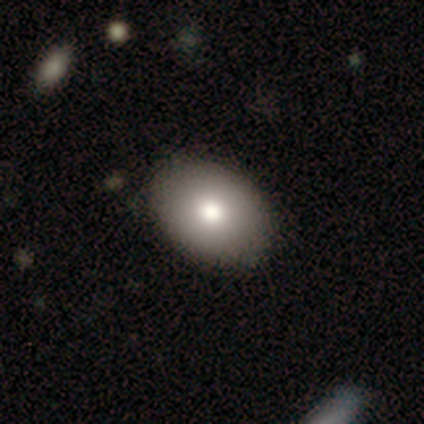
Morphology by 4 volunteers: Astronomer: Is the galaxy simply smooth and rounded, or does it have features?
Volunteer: smooth — 100%.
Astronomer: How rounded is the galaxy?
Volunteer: in between — 100%.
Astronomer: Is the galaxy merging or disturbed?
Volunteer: none — 100%.